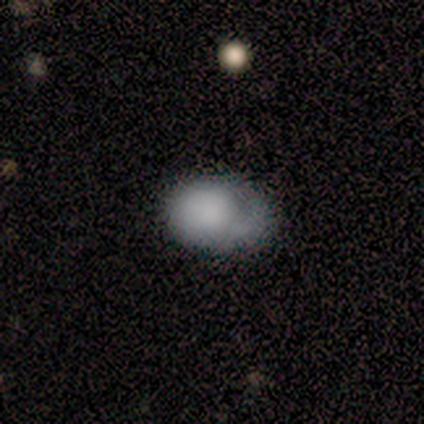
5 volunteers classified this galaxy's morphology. Overall: smooth (60%; featured or disk 40%). How rounded: in between (100%). Merging: minor disturbance (40%, tied with major disturbance).